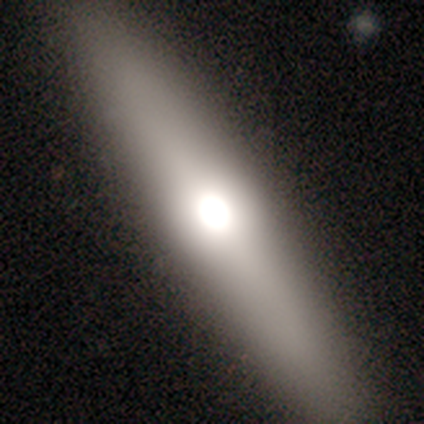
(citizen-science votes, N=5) This is likely a smooth galaxy (60%). How rounded: clearly cigar-shaped (100%). Merging: clearly none (100%).